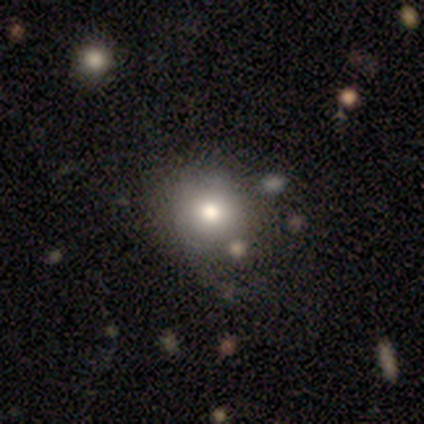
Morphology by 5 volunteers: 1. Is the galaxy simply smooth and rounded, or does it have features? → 80% smooth, 20% star or artifact, 0% featured or disk.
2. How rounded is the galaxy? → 75% round, 25% in between, 0% cigar-shaped.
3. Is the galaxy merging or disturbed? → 50% none, 25% minor disturbance, 25% major disturbance, 0% merger.